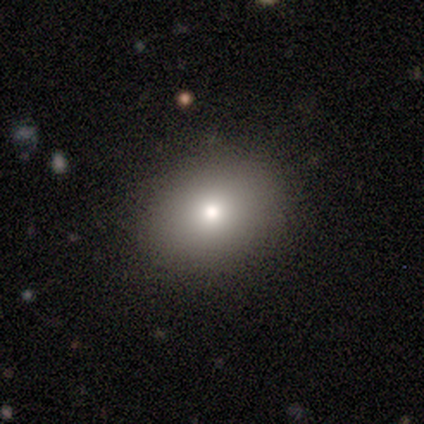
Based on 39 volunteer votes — smooth-or-featured: smooth: 77% | star or artifact: 13% | featured or disk: 10%
  how-rounded: in between: 70% | round: 30% | cigar-shaped: 0%
  merging: none: 85% | minor disturbance: 6% | major disturbance: 6% | merger: 3%